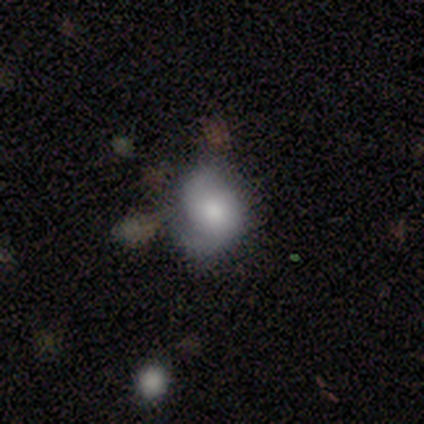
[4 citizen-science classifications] Smooth or featured? 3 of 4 (75%) said featured or disk. Edge-on disk? 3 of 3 (100%) said no. Bar? 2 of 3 (67%) said weak. Spiral arms? 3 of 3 (100%) said yes. Spiral winding? 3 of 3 (100%) said medium. Spiral arm count? 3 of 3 (100%) said 2. Bulge size? 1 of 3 (33%, tied with moderate and none) said large. Merging? 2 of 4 (50%) said none.